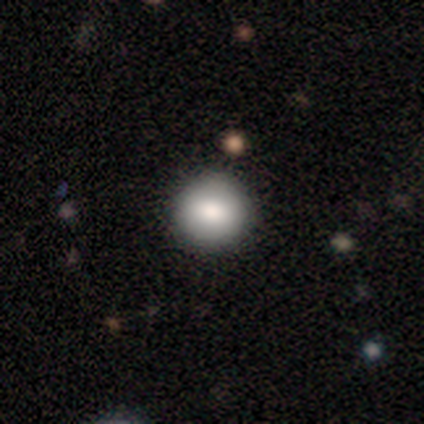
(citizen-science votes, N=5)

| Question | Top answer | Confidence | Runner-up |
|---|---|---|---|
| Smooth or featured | smooth | 80% | featured or disk (20%) |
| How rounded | round | 100% | — |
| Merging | none | 100% | — |